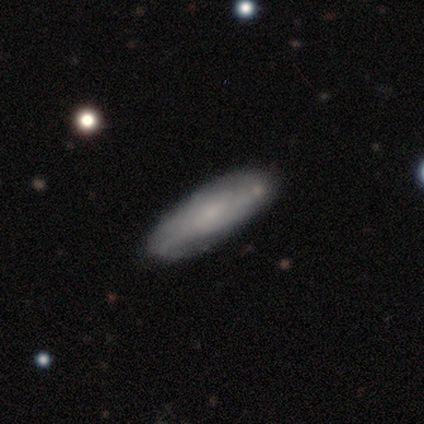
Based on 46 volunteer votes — Smooth or featured? 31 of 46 (67%) said smooth. How rounded? 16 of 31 (52%) said cigar-shaped. Merging? 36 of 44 (82%) said none.